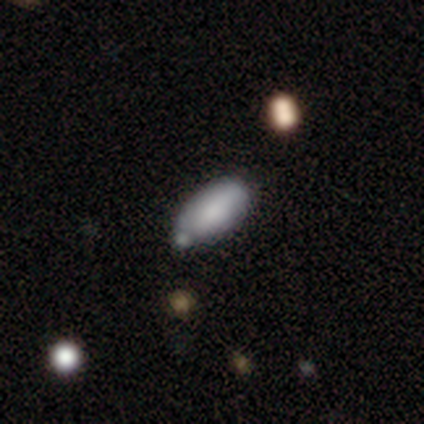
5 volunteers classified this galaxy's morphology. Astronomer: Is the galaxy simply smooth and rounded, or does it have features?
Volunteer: smooth — 60%.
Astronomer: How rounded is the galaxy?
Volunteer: in between — 100%.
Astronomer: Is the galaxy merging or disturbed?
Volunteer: none — 50%.